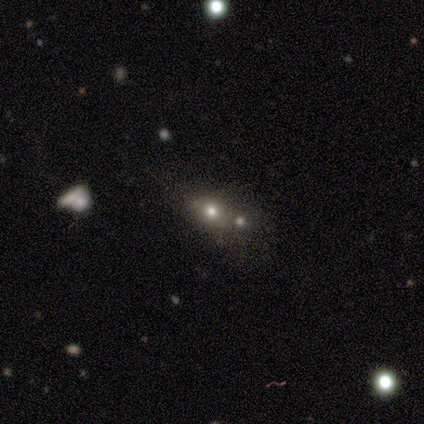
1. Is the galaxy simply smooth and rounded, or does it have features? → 60% smooth, 40% star or artifact, 0% featured or disk.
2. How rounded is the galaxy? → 67% in between, 33% round, 0% cigar-shaped.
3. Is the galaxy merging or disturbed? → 67% merger, 33% none, 0% minor disturbance, 0% major disturbance.